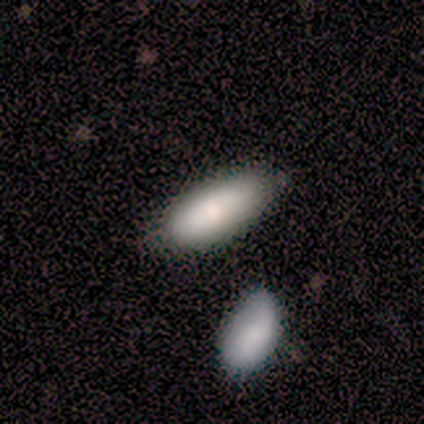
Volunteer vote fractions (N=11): Volunteers were most divided on "merging": none: 73%, minor disturbance: 27%, major disturbance: 0%, merger: 0%. More confident: smooth or featured — smooth (91%); how rounded — in between (90%).